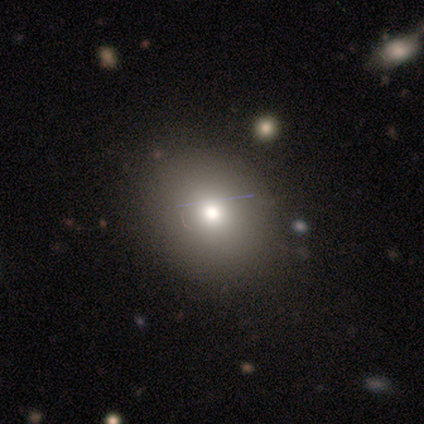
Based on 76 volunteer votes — Smooth or featured? 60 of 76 (79%) said smooth. How rounded? 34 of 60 (57%) said round. Merging? 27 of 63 (43%) said none.